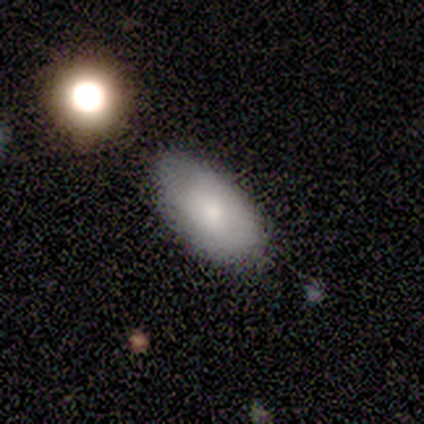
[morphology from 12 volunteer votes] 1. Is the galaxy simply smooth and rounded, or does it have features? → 83% smooth, 17% featured or disk, 0% star or artifact.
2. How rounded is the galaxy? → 80% in between, 10% round, 10% cigar-shaped.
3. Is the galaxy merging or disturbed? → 67% none, 33% minor disturbance, 0% major disturbance, 0% merger.